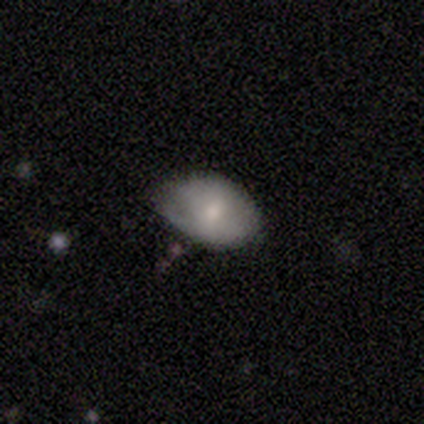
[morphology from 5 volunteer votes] smooth_or_featured: smooth (p=0.60) [alt: featured or disk p=0.20]
how_rounded: in between (p=1.00)
merging: minor disturbance (p=0.75) [alt: none p=0.25]